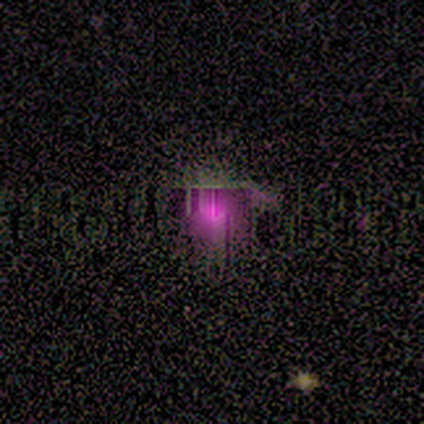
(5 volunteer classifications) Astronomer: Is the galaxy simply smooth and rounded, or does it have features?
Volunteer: star or artifact — 60% (runner-up: smooth, 40%).